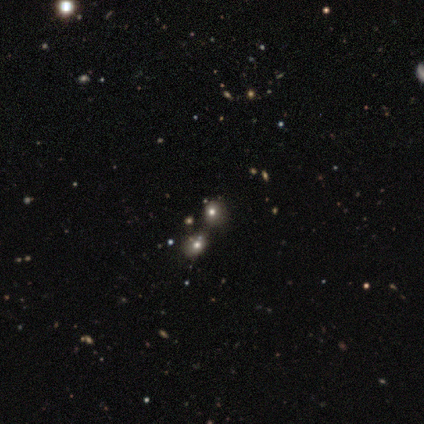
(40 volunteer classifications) smooth 62%, star or artifact 32%, featured or disk 5%. Down the decision tree: how rounded — round (88%); merging — none (48%).